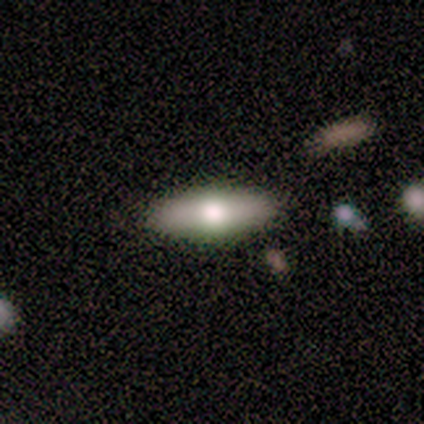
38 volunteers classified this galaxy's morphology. A smooth galaxy with no disk features (61%) that is in between round and cigar-shaped (52%).

Vote fractions:
- Smooth or featured? smooth: 61% / featured or disk: 39% / star or artifact: 0%
- How rounded? in between: 52% / cigar-shaped: 48% / round: 0%
- Merging? none: 87% / minor disturbance: 8% / major disturbance: 3% / merger: 3%